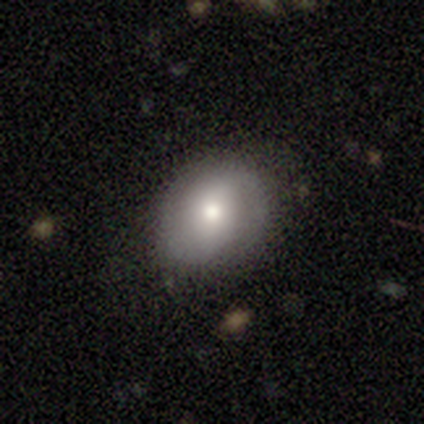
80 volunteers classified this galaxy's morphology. Volunteers were most divided on "how rounded": in between: 60%, round: 40%, cigar-shaped: 0%. Remaining: smooth or featured — smooth (62%); merging — none (39%).